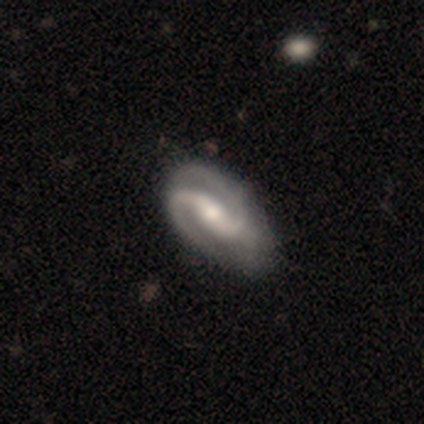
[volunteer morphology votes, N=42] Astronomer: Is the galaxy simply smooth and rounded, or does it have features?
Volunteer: featured or disk — 90%.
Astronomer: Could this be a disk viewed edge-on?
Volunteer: no — 95%.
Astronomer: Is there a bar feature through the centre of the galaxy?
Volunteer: weak — 53% (runner-up: strong, 31%).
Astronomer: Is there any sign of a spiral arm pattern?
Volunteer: yes — 100%.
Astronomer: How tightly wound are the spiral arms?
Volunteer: medium — 47% (runner-up: loose, 31%).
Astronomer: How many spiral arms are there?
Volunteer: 2 — 97%.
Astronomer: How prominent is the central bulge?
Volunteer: moderate — 64%.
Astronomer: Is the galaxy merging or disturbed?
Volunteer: none — 70%.